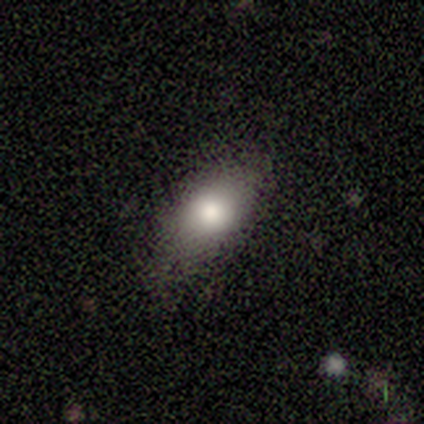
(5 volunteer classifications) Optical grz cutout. It shows a smooth galaxy with no disk features (60%) that is in between round and cigar-shaped (100%). Merging: none (75%).